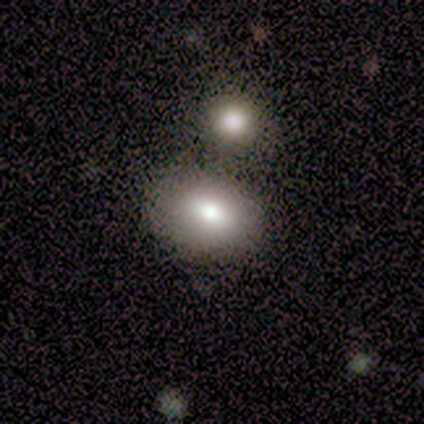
smooth-or-featured: smooth: 60% | featured or disk: 40% | star or artifact: 0%
  how-rounded: in between: 100% | round: 0% | cigar-shaped: 0%
  merging: merger: 60% | none: 20% | minor disturbance: 20% | major disturbance: 0%